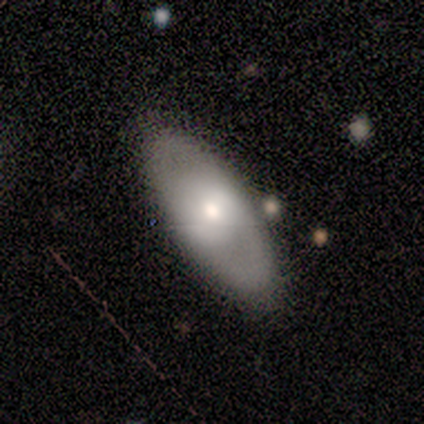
Smooth or featured? 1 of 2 (50%, tied with featured or disk) said smooth. How rounded? 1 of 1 (100%) said in between. Merging? 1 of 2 (50%, tied with minor disturbance) said none.